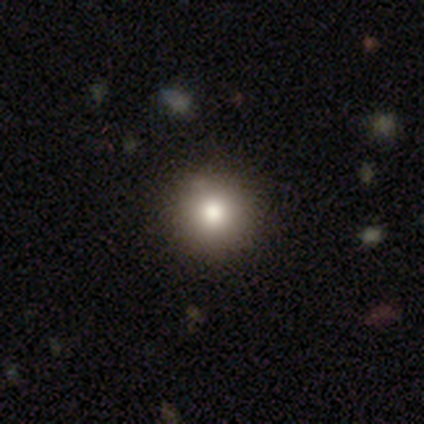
Smooth or featured: smooth — 82% (star or artifact — 10%)
How rounded: round — 100%
Merging: none — 94% (minor disturbance — 6%)